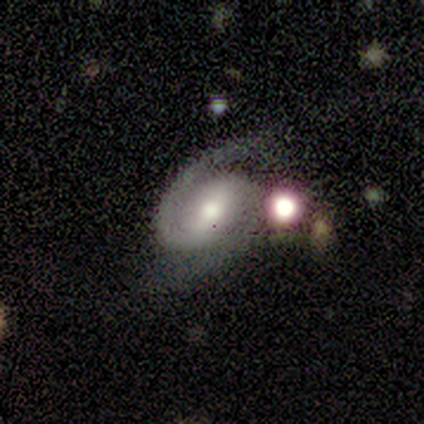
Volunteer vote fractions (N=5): A featured or disk galaxy (100%) with a weak bar (100%), 2 (100%) medium (60%) spiral arms (100%) and a moderate central bulge (80%).

Vote fractions:
- Smooth or featured? featured or disk: 100% / smooth: 0% / star or artifact: 0%
- Edge-on disk? no: 100% / yes: 0%
- Bar? weak: 100% / strong: 0% / no: 0%
- Spiral arms? yes: 100% / no: 0%
- Spiral winding? medium: 60% / tight: 40% / loose: 0%
- Spiral arm count? 2: 100% / 1: 0% / 3: 0% / 4: 0% / more than 4: 0% / can't tell: 0%
- Bulge size? moderate: 80% / small: 20% / dominant: 0% / large: 0% / none: 0%
- Merging? none: 40% (tied) / major disturbance: 40% (tied) / merger: 20% / minor disturbance: 0%